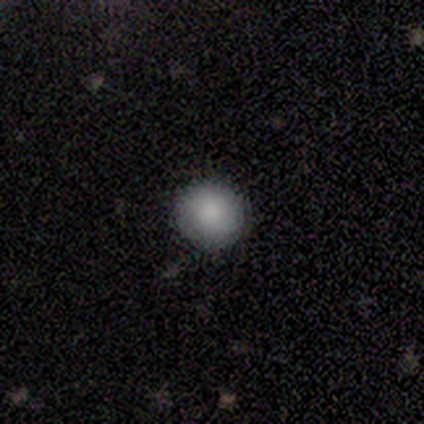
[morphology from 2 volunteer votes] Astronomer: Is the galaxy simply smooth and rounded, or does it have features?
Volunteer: smooth — 100%.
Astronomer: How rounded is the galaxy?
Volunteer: round — 100%.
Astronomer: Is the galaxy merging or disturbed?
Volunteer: none — 100%.